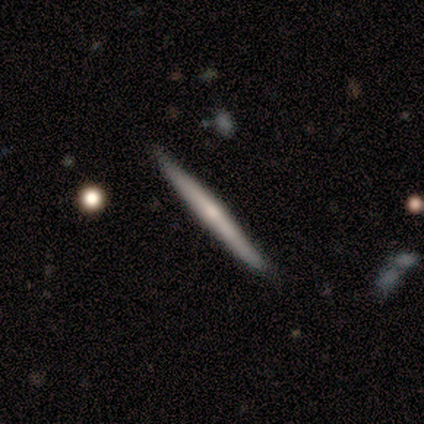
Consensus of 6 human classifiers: Q: Smooth or featured?
A: featured or disk (83%); runner-up: smooth (17%)
Q: Edge-on disk?
A: yes (100%)
Q: Edge-on bulge?
A: rounded (60%); runner-up: boxy (20%)
Q: Merging?
A: none (100%)